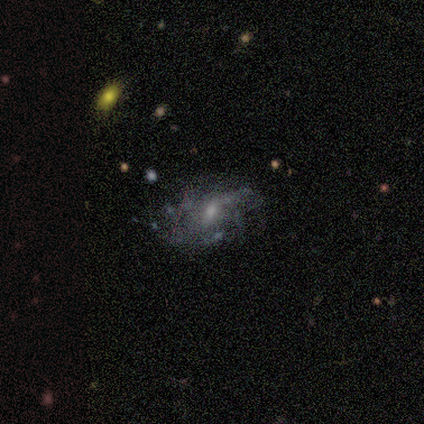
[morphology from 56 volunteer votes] smooth-or-featured: featured or disk: 73% | smooth: 21% | star or artifact: 5%
  disk-edge-on: no: 95% | yes: 5%
    bar: weak: 62% | no: 38% | strong: 0%
    has-spiral-arms: yes: 64% | no: 36%
      spiral-winding: loose: 56% | medium: 28% | tight: 16%
      spiral-arm-count: can't tell: 60% | 2: 12% | 4: 12% | 1: 8% | more than 4: 8% | 3: 0%
    bulge-size: small: 49% | moderate: 44% | none: 5% | large: 3% | dominant: 0%
  merging: none: 51% | minor disturbance: 32% | major disturbance: 17% | merger: 0%